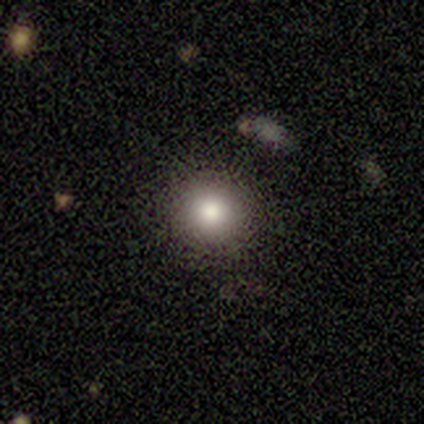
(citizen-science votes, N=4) Morphology: type=smooth (100%); roundness=round (100%); merging=none (100%).